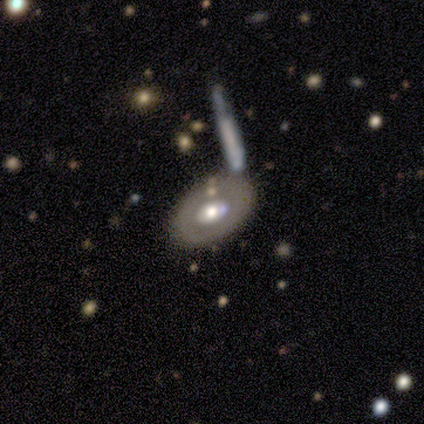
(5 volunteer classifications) Smooth or featured: featured or disk — 60% (smooth — 40%)
Edge-on disk: no — 100%
Bar: no — 100%
Spiral arms: no — 100%
Bulge size: moderate — 100%
Merging: none — 40% (tied with merger — 40%)